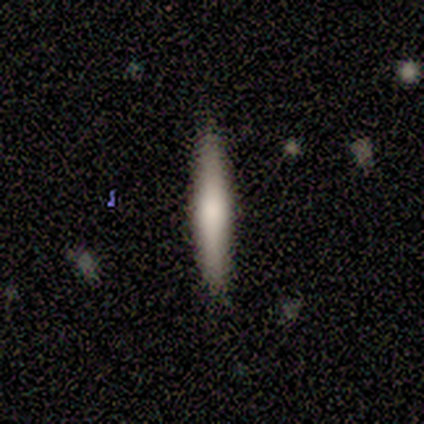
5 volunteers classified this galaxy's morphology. Smooth or featured?
  - smooth: 80% *
  - featured or disk: 20%
  - star or artifact: 0%
How rounded?
  - cigar-shaped: 100% *
  - round: 0%
  - in between: 0%
Merging?
  - none: 80% *
  - minor disturbance: 20%
  - major disturbance: 0%
  - merger: 0%